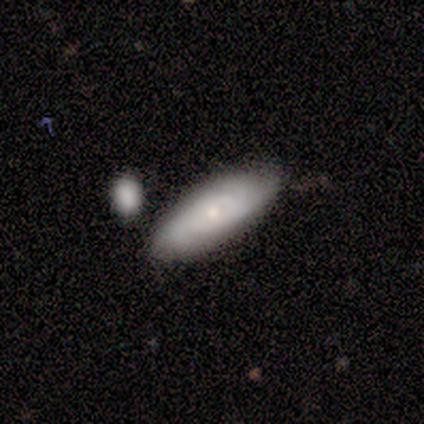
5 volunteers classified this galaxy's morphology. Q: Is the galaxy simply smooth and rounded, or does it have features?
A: smooth — 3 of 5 (60%).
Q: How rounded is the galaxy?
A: in between — 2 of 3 (67%).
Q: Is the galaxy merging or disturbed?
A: none — 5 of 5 (100%).